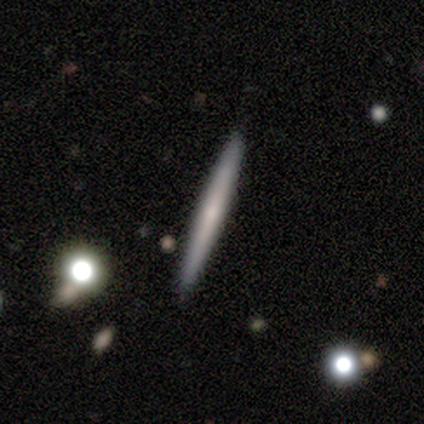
Morphology: type=smooth (60%); roundness=cigar-shaped (100%); merging=none (86%).